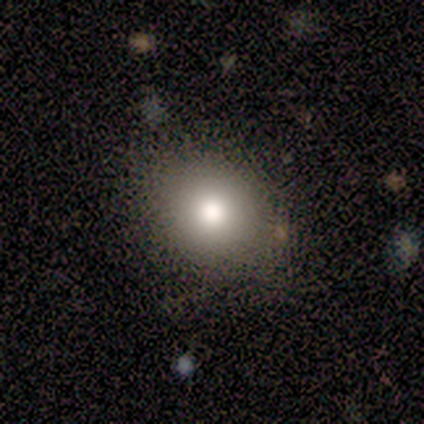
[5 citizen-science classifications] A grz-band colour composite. It shows a smooth galaxy with no disk features (100%) that is round (60%). Merging: none (60%).